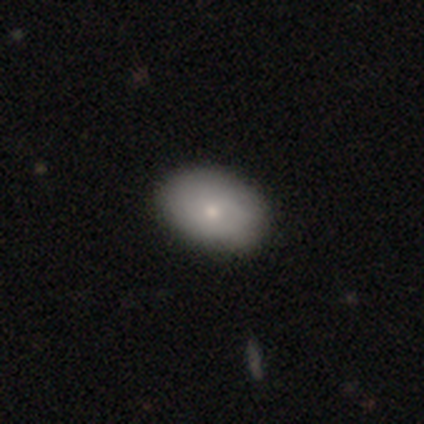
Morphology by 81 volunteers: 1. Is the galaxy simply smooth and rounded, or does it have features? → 80% smooth, 15% featured or disk, 5% star or artifact.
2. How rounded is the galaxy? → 89% in between, 11% round, 0% cigar-shaped.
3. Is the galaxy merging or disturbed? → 90% none, 9% minor disturbance, 1% major disturbance, 0% merger.